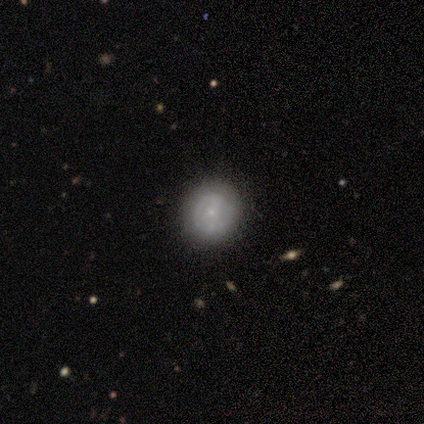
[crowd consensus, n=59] A featured or disk galaxy (59%) with no bar (74%), no spiral arms (61%) and a small central bulge (90%). Merging: none (79%).